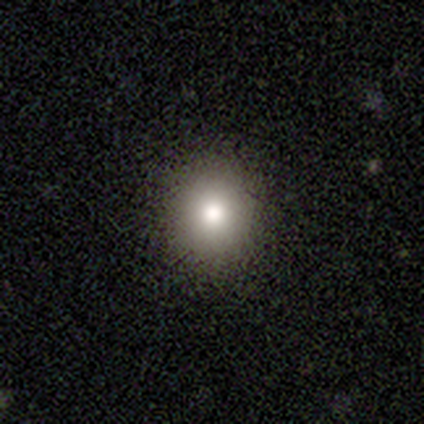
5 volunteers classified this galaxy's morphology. Overall: smooth (80%). How rounded: in between (75%). Merging: none (100%).